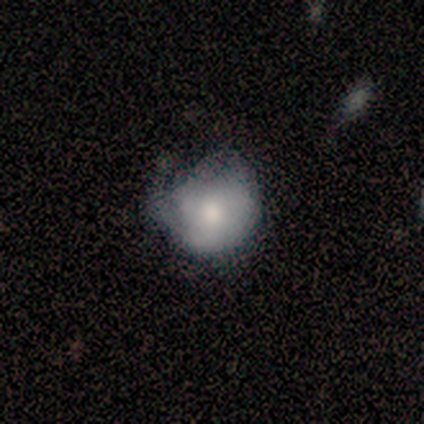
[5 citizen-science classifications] Overall: smooth (60%; featured or disk 20%). How rounded: round (100%). Merging: none (50%; minor disturbance 25%).